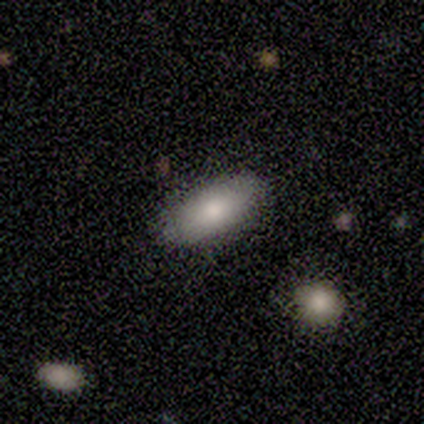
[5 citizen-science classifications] Morphology: type=smooth (100%); roundness=in between (60%); merging=none (80%).